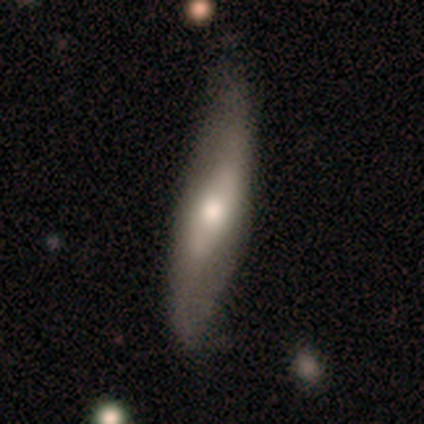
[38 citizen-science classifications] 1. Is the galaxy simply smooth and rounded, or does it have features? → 61% featured or disk, 34% smooth, 5% star or artifact.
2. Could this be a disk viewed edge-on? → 52% yes, 48% no.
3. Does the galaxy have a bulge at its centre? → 100% rounded, 0% boxy, 0% none.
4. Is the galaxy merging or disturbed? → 53% none, 33% minor disturbance, 14% major disturbance, 0% merger.